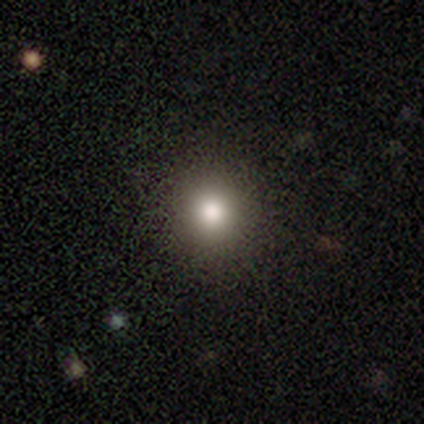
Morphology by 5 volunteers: This appears to be a smooth galaxy with no disk features (80%) that is round (100%). Merging: none (80%).